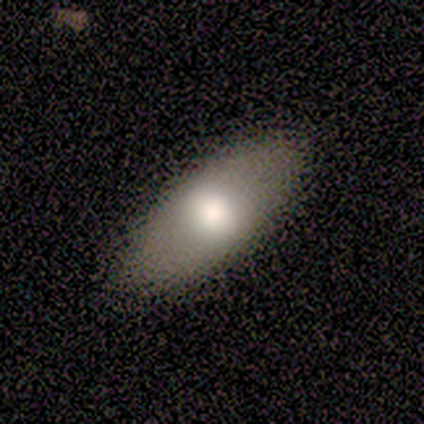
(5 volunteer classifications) Q: Smooth or featured?
A: smooth (60%); runner-up: featured or disk (20%)
Q: How rounded?
A: in between (67%); runner-up: round (33%)
Q: Merging?
A: none (75%); runner-up: minor disturbance (25%)